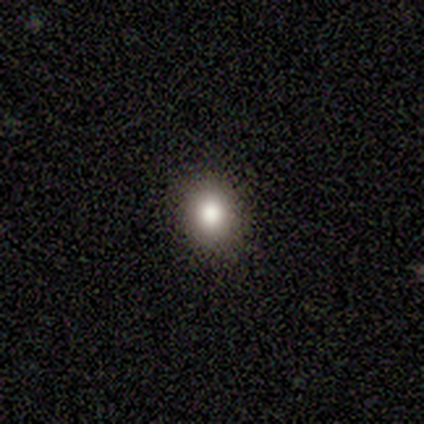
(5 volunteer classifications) featured or disk 40% (tied), star or artifact 40% (tied), smooth 20%. Down the decision tree: edge-on disk — no (100%); bar — no (100%); spiral arms — no (100%); bulge size — large (50%, tied with moderate); merging — minor disturbance (67%).